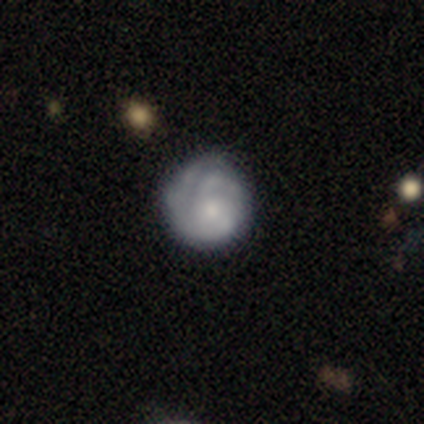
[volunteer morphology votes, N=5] smooth_or_featured: featured or disk (p=0.60) [alt: smooth p=0.40]
disk_edge_on: no (p=1.00)
bar: weak (p=0.67) [alt: no p=0.33]
has_spiral_arms: yes (p=1.00)
spiral_winding: tight (p=1.00)
spiral_arm_count: 2 (p=0.33) [tied with: 3 p=0.33, can't tell p=0.33]
bulge_size: moderate (p=0.67) [alt: small p=0.33]
merging: none (p=0.80) [alt: minor disturbance p=0.20]